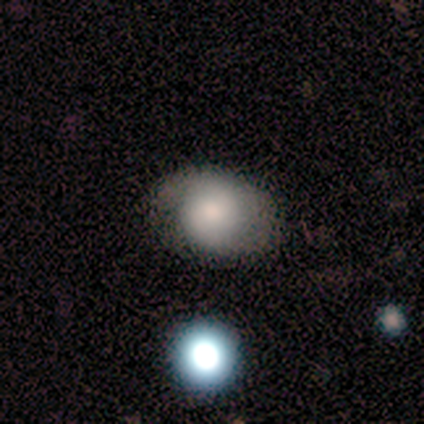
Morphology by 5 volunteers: smooth 100%, featured or disk 0%, star or artifact 0%. Down the decision tree: how rounded — in between (80%); merging — none (60%).